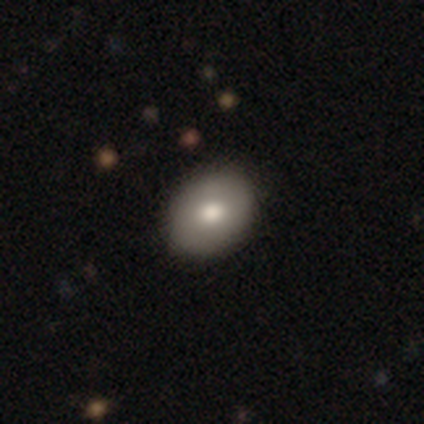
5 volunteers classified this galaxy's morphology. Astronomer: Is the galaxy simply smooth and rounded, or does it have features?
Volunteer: smooth — 40%, tied with featured or disk at 40%.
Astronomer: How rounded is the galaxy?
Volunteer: round — 100%.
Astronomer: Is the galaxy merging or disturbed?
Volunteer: none — 100%.